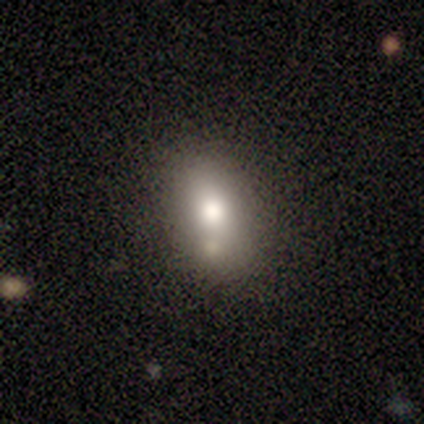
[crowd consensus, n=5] Overall: smooth (80%). How rounded: in between (100%). Merging: none (60%; minor disturbance 20%).